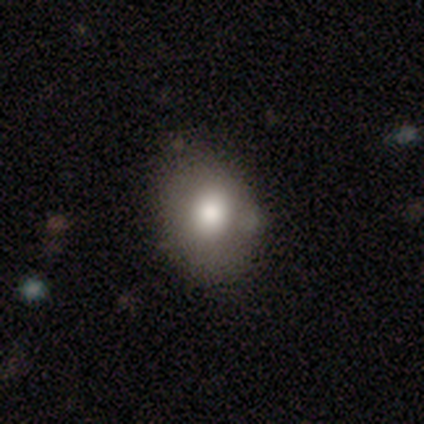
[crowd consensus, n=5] A smooth galaxy with no disk features (80%) that is round (50%, tied with in between).

Vote fractions:
- Smooth or featured? smooth: 80% / featured or disk: 20% / star or artifact: 0%
- How rounded? round: 50% (tied) / in between: 50% (tied) / cigar-shaped: 0%
- Merging? none: 60% / minor disturbance: 20% / merger: 20% / major disturbance: 0%